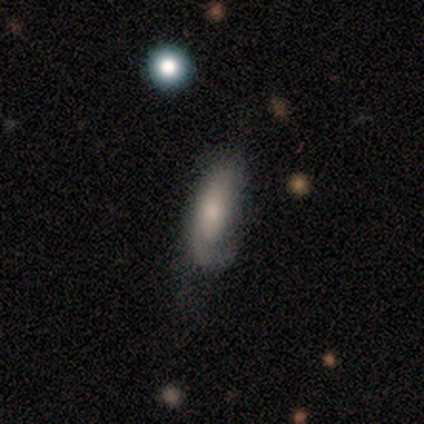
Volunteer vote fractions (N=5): Smooth or featured? featured or disk (60%)
Edge-on disk? no (100%)
Bar? no (67%)
Spiral arms? yes (100%)
Spiral winding? medium (67%)
Spiral arm count? 1 (67%)
Bulge size? moderate (67%)
Merging? minor disturbance (40%, tied with major disturbance)